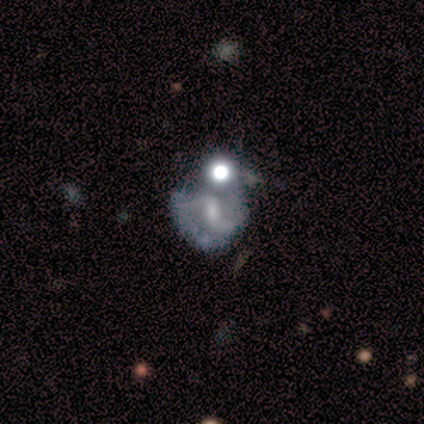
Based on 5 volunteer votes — This appears to be a featured or disk galaxy (80%) with a weak bar (100%), 2 (100%) loose (100%) spiral arms (100%) and a small central bulge (100%). Merging: minor disturbance (50%, tied with merger).